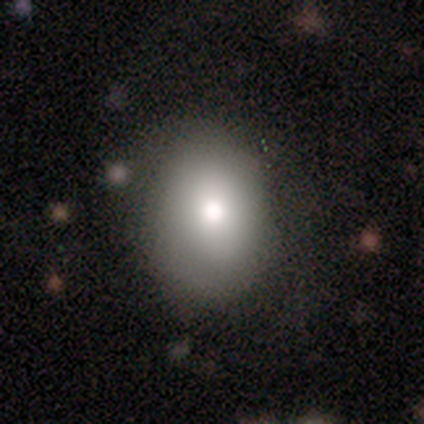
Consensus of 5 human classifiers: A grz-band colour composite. It shows a smooth galaxy with no disk features (100%) that is round (60%). Merging: none (40%, tied with major disturbance).